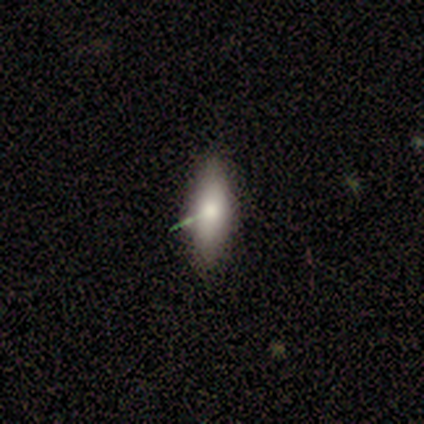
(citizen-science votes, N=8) Overall: smooth (62%; featured or disk 25%). How rounded: in between (80%). Merging: none (86%).